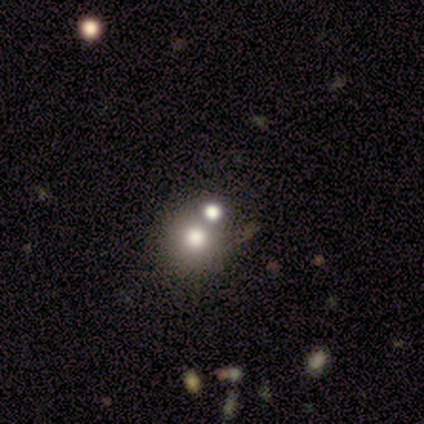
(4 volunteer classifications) smooth-or-featured: smooth: 75% | star or artifact: 25% | featured or disk: 0%
  how-rounded: round: 67% | in between: 33% | cigar-shaped: 0%
  merging: none: 67% | merger: 33% | minor disturbance: 0% | major disturbance: 0%